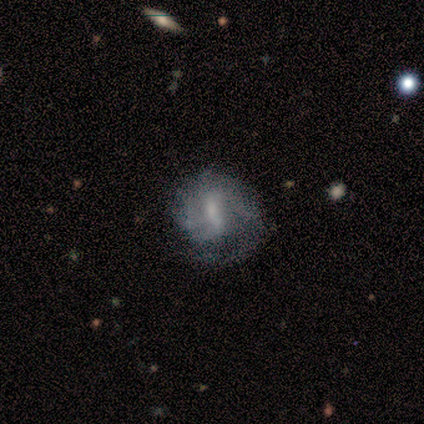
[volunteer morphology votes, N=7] Smooth or featured? featured or disk (57%)
Edge-on disk? no (100%)
Bar? weak (100%)
Spiral arms? yes (75%)
Spiral winding? tight (33%, tied with medium and loose)
Spiral arm count? 1 (33%, tied with 2 and can't tell)
Bulge size? small (50%)
Merging? minor disturbance (50%)